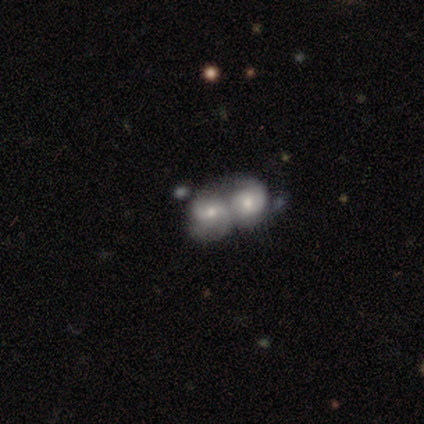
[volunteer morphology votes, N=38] smooth-or-featured: featured or disk: 74% | smooth: 24% | star or artifact: 3%
  disk-edge-on: no: 100% | yes: 0%
    bar: no: 57% | weak: 39% | strong: 4%
    has-spiral-arms: yes: 89% | no: 11%
      spiral-winding: medium: 60% | tight: 24% | loose: 16%
      spiral-arm-count: 2: 64% | can't tell: 16% | 4: 12% | 3: 8% | 1: 0% | more than 4: 0%
    bulge-size: moderate: 68% | small: 29% | none: 4% | dominant: 0% | large: 0%
  merging: merger: 89% | none: 11% | minor disturbance: 0% | major disturbance: 0%